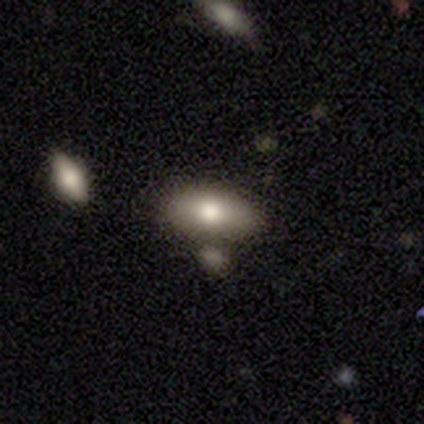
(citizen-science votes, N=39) Smooth or featured?
  - smooth: 74% *
  - featured or disk: 15%
  - star or artifact: 10%
How rounded?
  - in between: 83% *
  - cigar-shaped: 17%
  - round: 0%
Merging?
  - none: 63% *
  - minor disturbance: 14%
  - merger: 14%
  - major disturbance: 9%